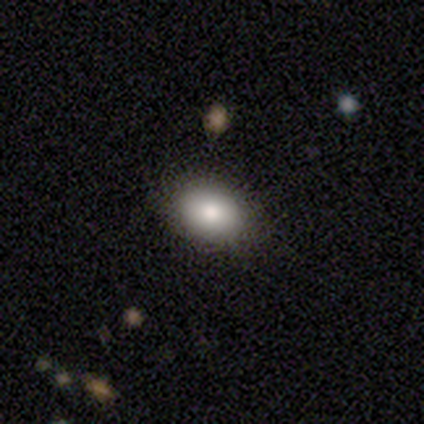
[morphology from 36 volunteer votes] type=smooth (86%); roundness=in between (68%); merging=none (80%).